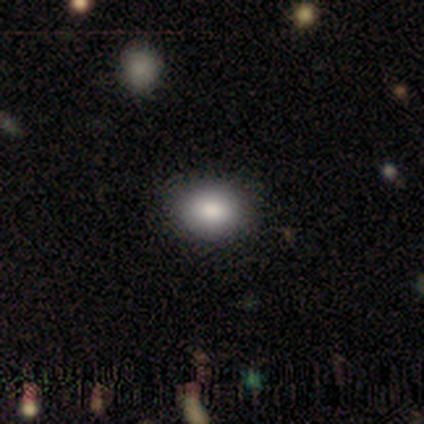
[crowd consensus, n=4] smooth_or_featured: smooth (p=0.75) [alt: featured or disk p=0.25]
how_rounded: in between (p=0.67) [alt: round p=0.33]
merging: none (p=1.00)